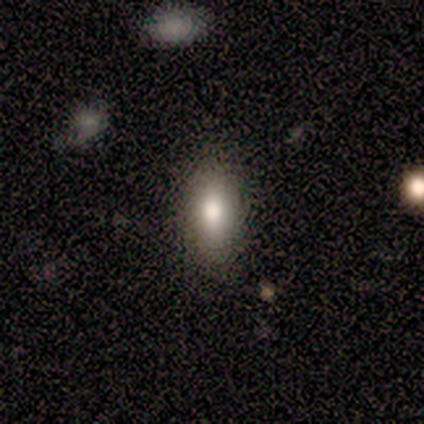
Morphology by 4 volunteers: A smooth galaxy with no disk features (100%) that is in between round and cigar-shaped (100%). Merging: none (100%).